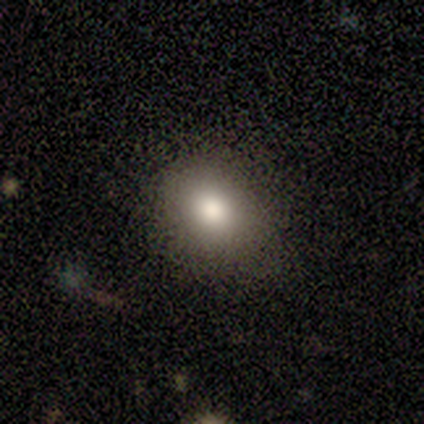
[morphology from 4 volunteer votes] A smooth galaxy with no disk features (75%) that is in between round and cigar-shaped (67%).

Vote fractions:
- Smooth or featured? smooth: 75% / featured or disk: 25% / star or artifact: 0%
- How rounded? in between: 67% / round: 33% / cigar-shaped: 0%
- Merging? none: 75% / minor disturbance: 25% / major disturbance: 0% / merger: 0%